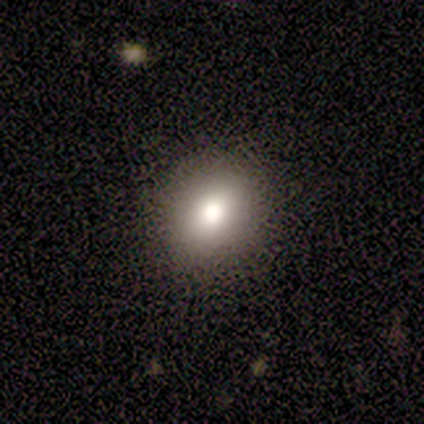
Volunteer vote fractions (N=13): Morphology: type=smooth (85%); roundness=round (73%); merging=none (83%).